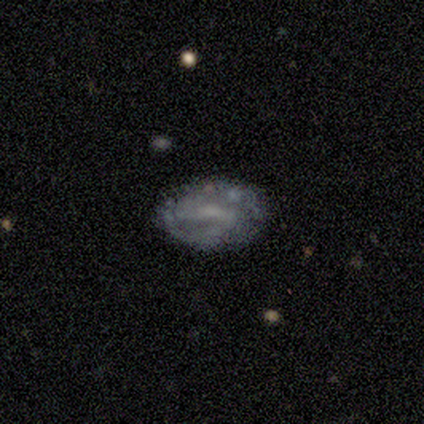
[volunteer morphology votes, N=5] Smooth or featured?
  - featured or disk: 100% *
  - smooth: 0%
  - star or artifact: 0%
Edge-on disk?
  - no: 100% *
  - yes: 0%
Bar?
  - weak: 40% * (tied)
  - no: 40% * (tied)
  - strong: 20%
Spiral arms?
  - no: 60% *
  - yes: 40%
Bulge size?
  - small: 40% * (tied)
  - none: 40% * (tied)
  - moderate: 20%
  - dominant: 0%
  - large: 0%
Merging?
  - none: 60% *
  - minor disturbance: 20%
  - major disturbance: 20%
  - merger: 0%